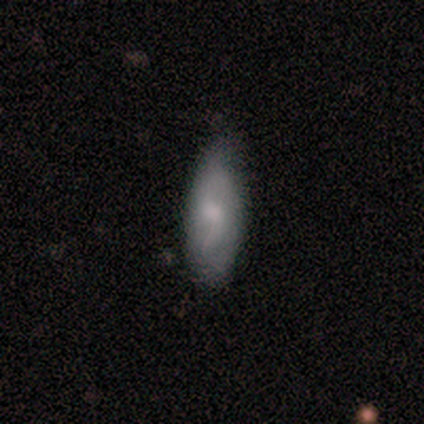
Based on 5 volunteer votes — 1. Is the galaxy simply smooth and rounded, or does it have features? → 60% smooth, 20% featured or disk, 20% star or artifact.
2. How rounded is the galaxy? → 100% in between, 0% round, 0% cigar-shaped.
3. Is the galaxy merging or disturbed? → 100% none, 0% minor disturbance, 0% major disturbance, 0% merger.